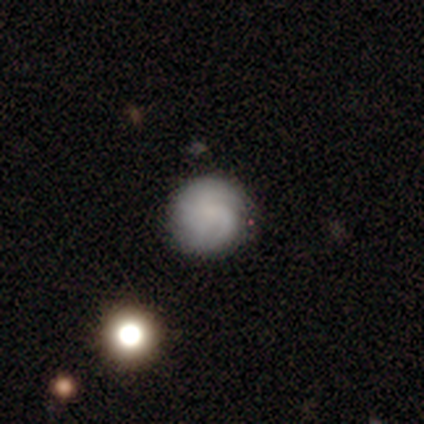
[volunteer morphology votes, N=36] type=smooth (53%); roundness=round (95%); merging=none (85%).